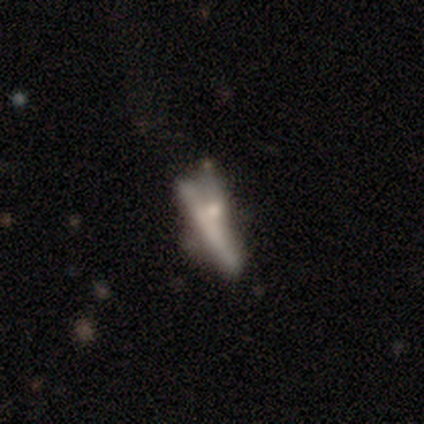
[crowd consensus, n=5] Q: Smooth or featured?
A: featured or disk (60%); runner-up: smooth (40%)
Q: Edge-on disk?
A: yes (100%)
Q: Edge-on bulge?
A: none (67%); runner-up: rounded (33%)
Q: Merging?
A: minor disturbance (40%); runner-up: none (20%)